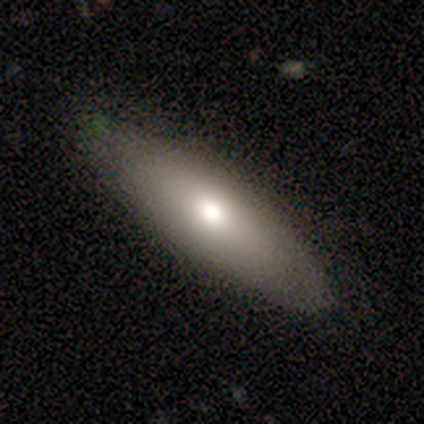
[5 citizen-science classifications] This is likely a smooth galaxy (60%). How rounded: clearly in between (100%). Merging: clearly none (100%).